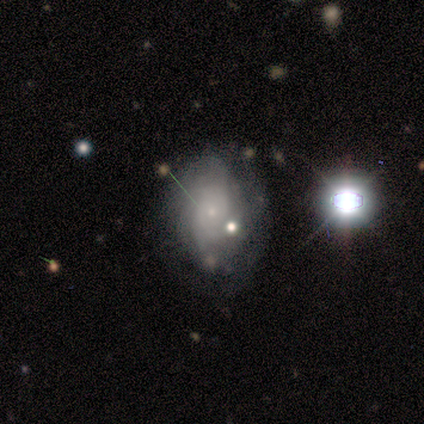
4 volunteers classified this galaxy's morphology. type=featured or disk (50%, tied with star or artifact); edge-on=no (100%); bar=no (100%); spiral arms=yes (50%, tied with no); winding=tight (100%); arm count=can't tell (100%); bulge=small (50%, tied with none); merging=none (50%, tied with minor disturbance).